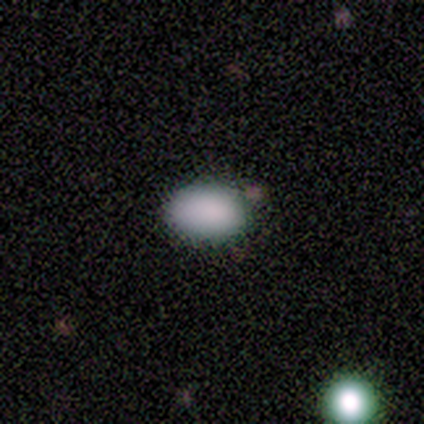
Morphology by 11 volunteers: Q: Smooth or featured?
A: smooth (73%); runner-up: star or artifact (27%)
Q: How rounded?
A: in between (75%); runner-up: round (25%)
Q: Merging?
A: none (62%); runner-up: minor disturbance (25%)